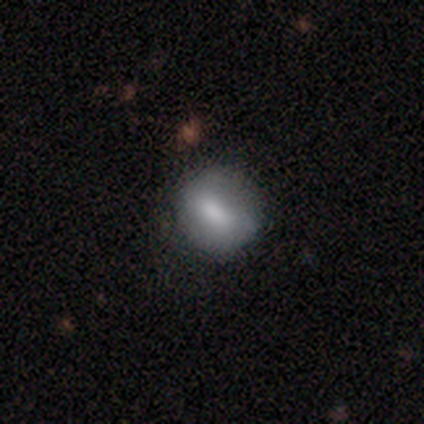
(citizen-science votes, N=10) A smooth galaxy with no disk features (90%) that is round (67%). Merging: none (100%).